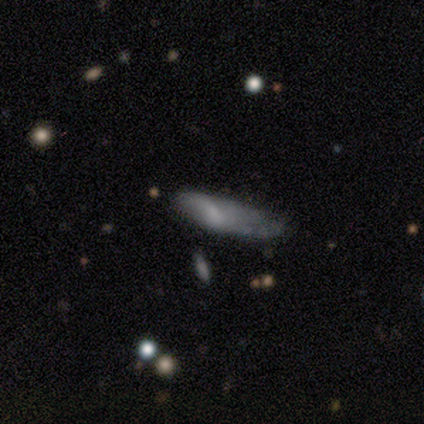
Volunteers were most divided on "merging": minor disturbance: 50%, none: 25%, major disturbance: 25%, merger: 0%. More confident: how rounded — in between (100%); smooth or featured — smooth (75%).